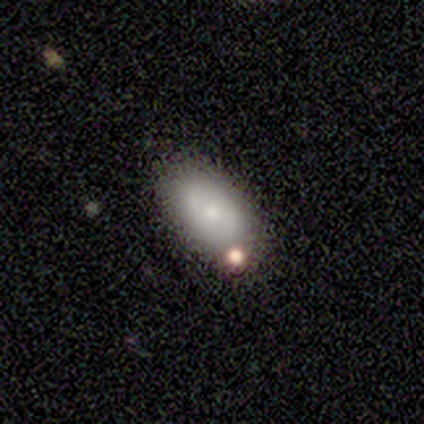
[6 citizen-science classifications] Q: Smooth or featured?
A: smooth (67%); runner-up: featured or disk (33%)
Q: How rounded?
A: in between (100%)
Q: Merging?
A: none (50%); runner-up: major disturbance (33%)